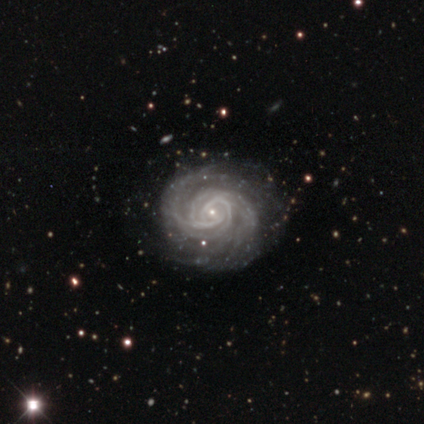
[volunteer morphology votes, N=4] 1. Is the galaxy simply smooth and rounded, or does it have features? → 100% featured or disk, 0% smooth, 0% star or artifact.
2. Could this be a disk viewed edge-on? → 100% no, 0% yes.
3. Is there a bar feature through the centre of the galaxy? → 50% weak (tied), 50% no (tied), 0% strong.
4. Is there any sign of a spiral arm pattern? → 100% yes, 0% no.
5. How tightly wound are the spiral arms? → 75% tight, 25% medium, 0% loose.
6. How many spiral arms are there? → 25% 2 (tied), 25% 3 (tied), 25% more than 4 (tied), 25% can't tell (tied), 0% 1, 0% 4.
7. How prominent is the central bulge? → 100% small, 0% dominant, 0% large, 0% moderate, 0% none.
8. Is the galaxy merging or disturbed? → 50% none (tied), 50% minor disturbance (tied), 0% major disturbance, 0% merger.